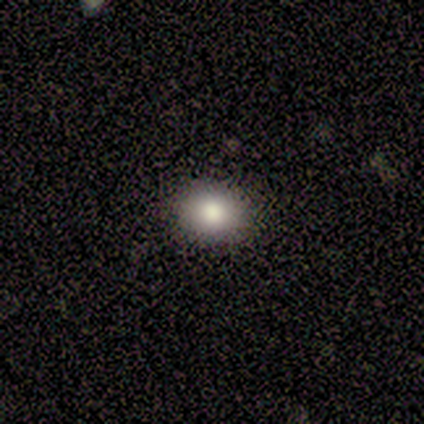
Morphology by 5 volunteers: Q: Smooth or featured?
A: smooth (80%); runner-up: star or artifact (20%)
Q: How rounded?
A: round (50%); tied with: in between (50%)
Q: Merging?
A: none (75%); runner-up: major disturbance (25%)